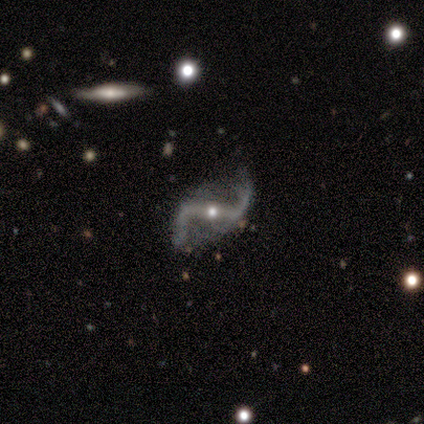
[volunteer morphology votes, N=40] featured or disk 92%, star or artifact 8%, smooth 0%. Down the decision tree: edge-on disk — no (100%); bar — strong (76%); spiral arms — yes (100%); spiral arm count — 2 (97%); spiral winding — loose (89%); bulge size — moderate (49%, tied with small); merging — none (73%).